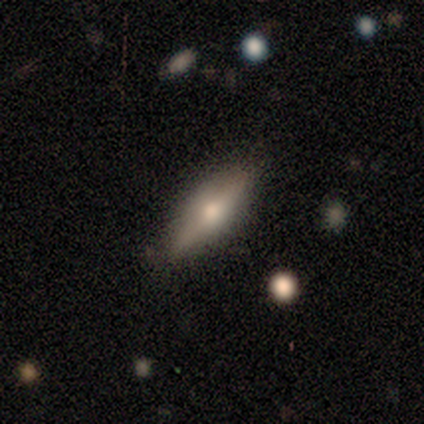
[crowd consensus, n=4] Overall: featured or disk (100%). Edge-on disk: yes (75%). Edge-on bulge: rounded (100%). Merging: none (100%).